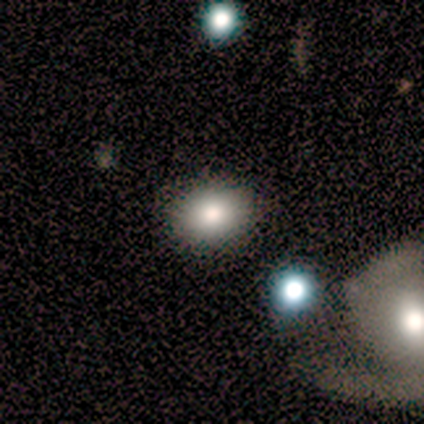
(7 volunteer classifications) Smooth or featured: smooth — 86% (star or artifact — 14%)
How rounded: in between — 83% (round — 17%)
Merging: none — 100%